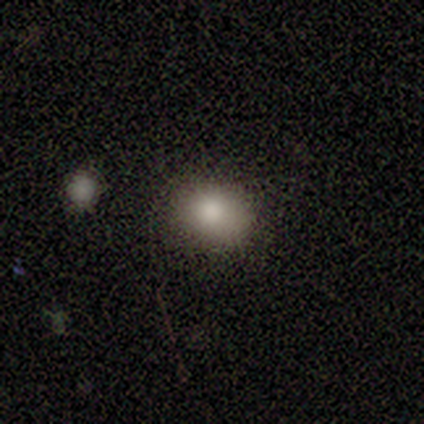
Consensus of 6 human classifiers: Smooth or featured: smooth — 83% (star or artifact — 17%)
How rounded: round — 60% (in between — 40%)
Merging: none — 80% (minor disturbance — 20%)